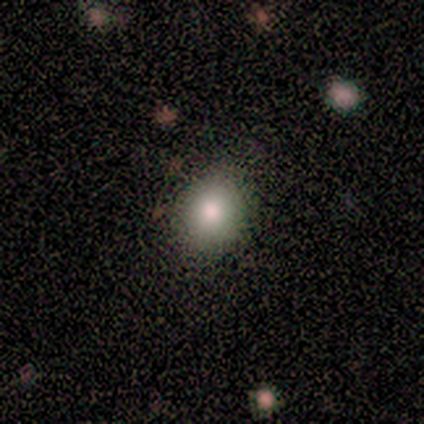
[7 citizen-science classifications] This is likely a smooth galaxy (71%). How rounded: clearly round (80%). Merging: clearly none (100%).